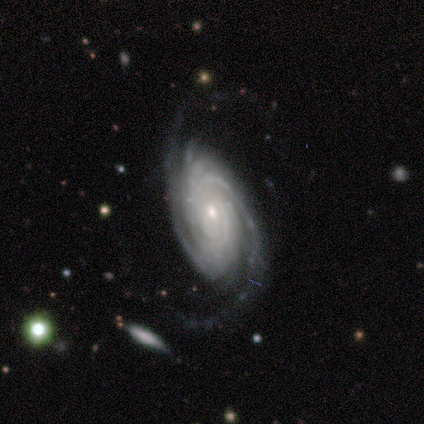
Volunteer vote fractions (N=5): Smooth or featured: featured or disk — 100%
Edge-on disk: no — 80% (yes — 20%)
Bar: no — 100%
Spiral arms: yes — 100%
Spiral winding: tight — 75% (medium — 25%)
Spiral arm count: 2 — 50% (more than 4 — 25%)
Bulge size: small — 100%
Merging: none — 80% (major disturbance — 20%)